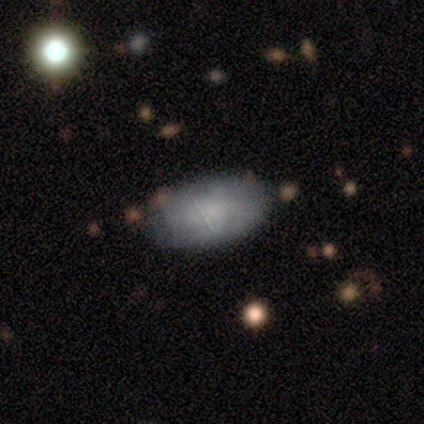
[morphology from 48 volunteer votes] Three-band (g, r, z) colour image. It shows a smooth galaxy with no disk features (77%) that is in between round and cigar-shaped (89%). Merging: none (81%).